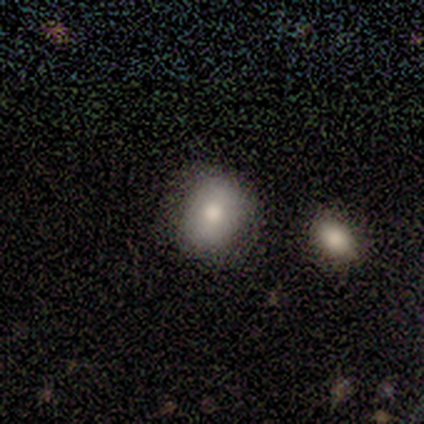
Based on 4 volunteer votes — This is likely a smooth galaxy (75%). How rounded: likely in between (67%). Merging: clearly none (100%).